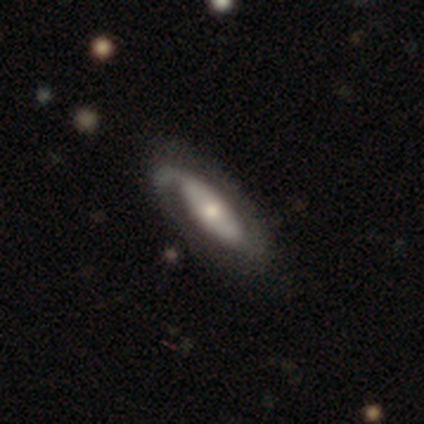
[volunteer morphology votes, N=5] This appears to be a featured or disk galaxy (80%) with no bar (100%), 2 (67%) tight (33%, tied with medium and loose) spiral arms (100%) and a moderate central bulge (67%). Merging: none (75%).